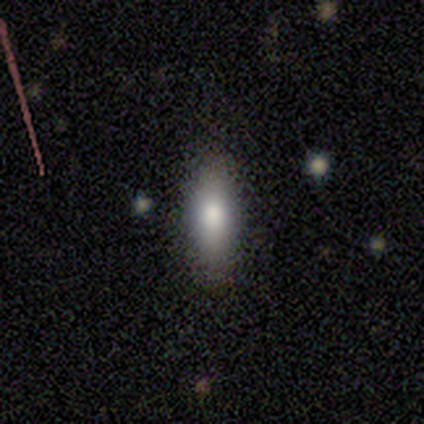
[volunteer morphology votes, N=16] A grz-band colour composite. It shows a smooth galaxy with no disk features (94%) that is in between round and cigar-shaped (60%). Merging: none (94%).